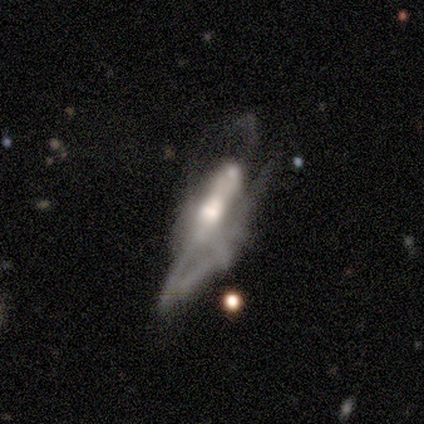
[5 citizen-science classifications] Overall: featured or disk (60%; smooth 20%). Edge-on disk: no (67%; yes 33%). Bar: strong (50%, tied with no). Spiral arms: yes (50%, tied with no). Spiral arm count: 1 (100%). Spiral winding: medium (100%). Bulge size: moderate (100%). Merging: major disturbance (100%).